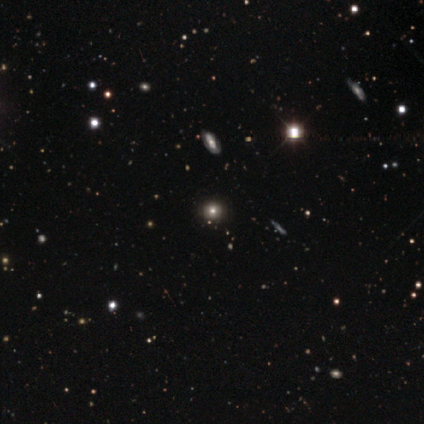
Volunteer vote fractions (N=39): Smooth or featured? smooth (46%, tied with star or artifact)
How rounded? round (78%)
Merging? none (81%)